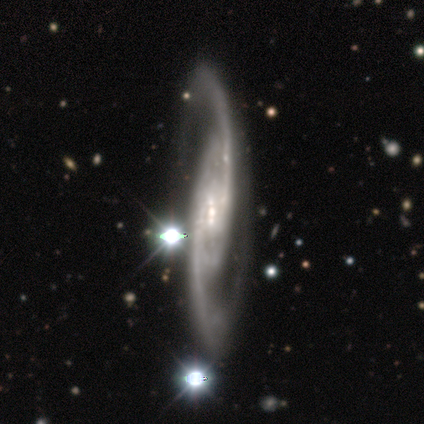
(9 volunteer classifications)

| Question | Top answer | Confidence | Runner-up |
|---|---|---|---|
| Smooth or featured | featured or disk | 100% | — |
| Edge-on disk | no | 56% | yes (44%) |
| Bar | weak | 40% | tied: no (40%) |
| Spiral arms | yes | 100% | — |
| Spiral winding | medium | 80% | loose (20%) |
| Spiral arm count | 2 | 100% | — |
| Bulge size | small | 60% | moderate (40%) |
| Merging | none | 89% | merger (11%) |